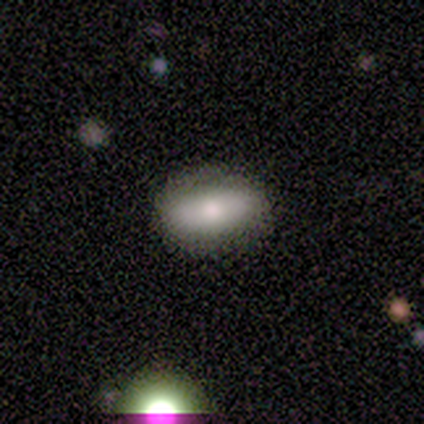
Q: Smooth or featured?
A: smooth (100%)
Q: How rounded?
A: in between (100%)
Q: Merging?
A: major disturbance (100%)